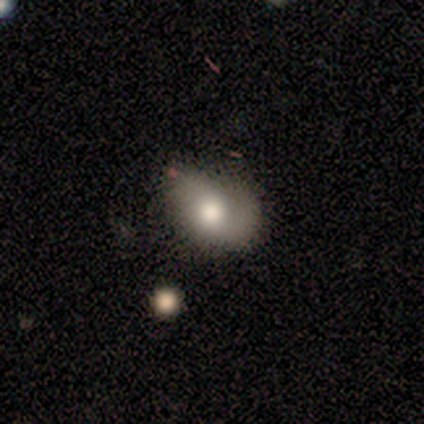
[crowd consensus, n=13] Smooth or featured?
  - smooth: 46% *
  - featured or disk: 38%
  - star or artifact: 15%
How rounded?
  - in between: 83% *
  - round: 17%
  - cigar-shaped: 0%
Merging?
  - minor disturbance: 55% *
  - none: 27%
  - major disturbance: 9%
  - merger: 9%